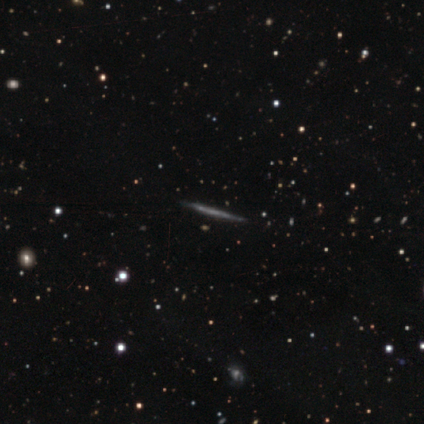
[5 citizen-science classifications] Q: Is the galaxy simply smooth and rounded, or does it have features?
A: featured or disk — 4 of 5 (80%).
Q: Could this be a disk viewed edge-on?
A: yes — 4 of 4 (100%).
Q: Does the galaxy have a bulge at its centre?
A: none — 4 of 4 (100%).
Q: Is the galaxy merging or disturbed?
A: none — 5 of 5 (100%).